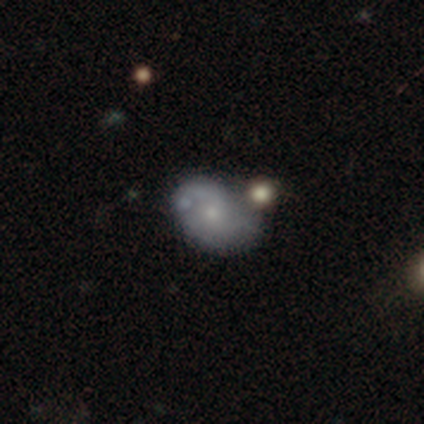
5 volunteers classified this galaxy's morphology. Smooth or featured? featured or disk (80%)
Edge-on disk? no (100%)
Bar? no (100%)
Spiral arms? yes (75%)
Spiral winding? loose (67%)
Spiral arm count? 1 (33%, tied with 2 and can't tell)
Bulge size? small (100%)
Merging? minor disturbance (60%)